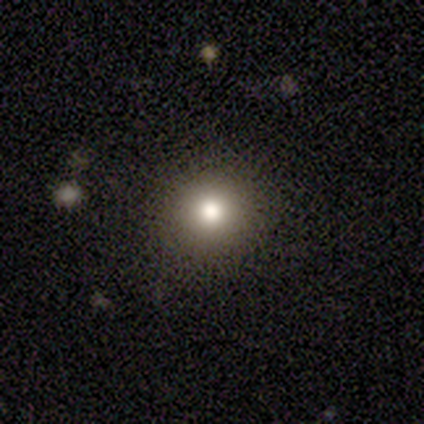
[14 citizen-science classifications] A smooth galaxy with no disk features (64%) that is round (89%).

Vote fractions:
- Smooth or featured? smooth: 64% / star or artifact: 21% / featured or disk: 14%
- How rounded? round: 89% / in between: 11% / cigar-shaped: 0%
- Merging? none: 82% / minor disturbance: 9% / major disturbance: 9% / merger: 0%